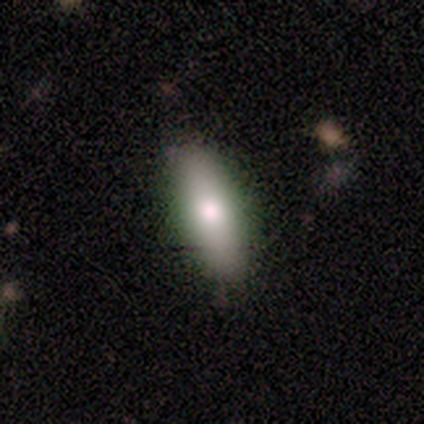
Volunteers were most divided on "how rounded": in between: 67%, cigar-shaped: 33%, round: 0%. More confident: merging — none (75%); smooth or featured — smooth (60%).